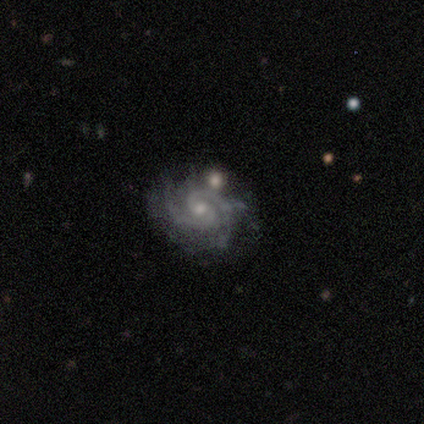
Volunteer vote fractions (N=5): This appears to be a featured or disk galaxy (100%) with a weak bar (60%), 2 (80%) medium (60%) spiral arms (100%) and a small central bulge (60%). Merging: none (60%).